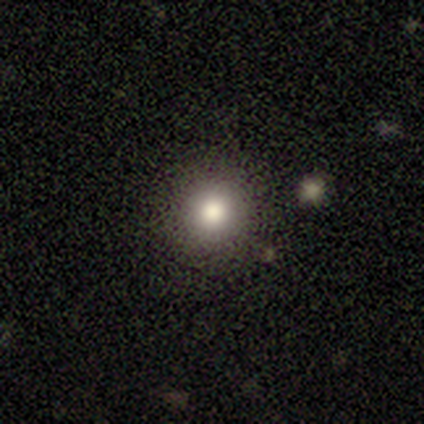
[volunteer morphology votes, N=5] smooth_or_featured: smooth (p=0.80) [alt: featured or disk p=0.20]
how_rounded: round (p=1.00)
merging: none (p=0.80) [alt: major disturbance p=0.20]